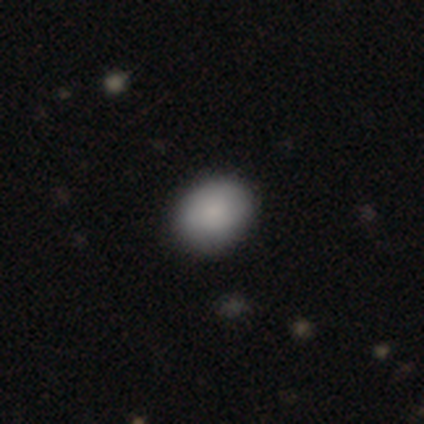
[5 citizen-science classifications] A smooth galaxy with no disk features (100%) that is in between round and cigar-shaped (60%). Merging: none (80%).